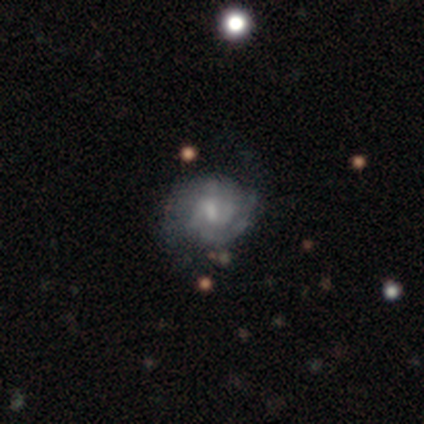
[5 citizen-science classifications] Morphology: type=featured or disk (60%); edge-on=no (100%); bar=weak (67%); spiral arms=yes (100%); winding=tight (67%); arm count=2 (67%); bulge=moderate (67%); merging=none (60%).